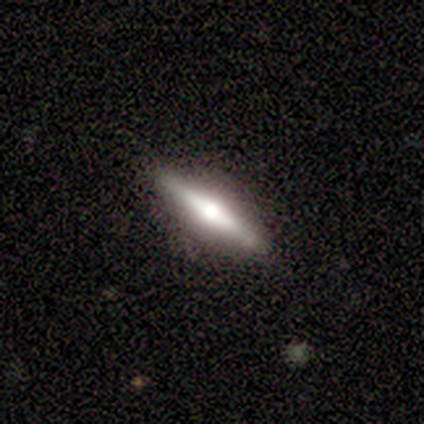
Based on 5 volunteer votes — Smooth or featured?
  - featured or disk: 80% *
  - smooth: 20%
  - star or artifact: 0%
Edge-on disk?
  - yes: 100% *
  - no: 0%
Edge-on bulge?
  - rounded: 100% *
  - boxy: 0%
  - none: 0%
Merging?
  - none: 80% *
  - minor disturbance: 20%
  - major disturbance: 0%
  - merger: 0%